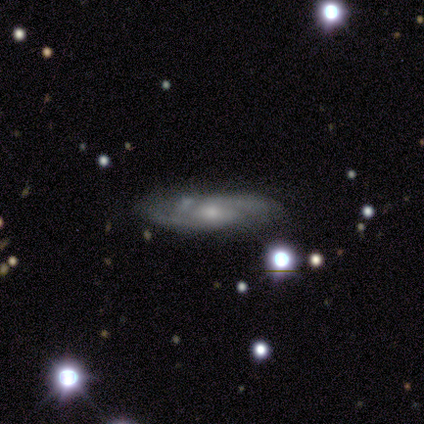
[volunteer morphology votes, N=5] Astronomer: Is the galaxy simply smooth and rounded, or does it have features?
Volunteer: featured or disk — 80%.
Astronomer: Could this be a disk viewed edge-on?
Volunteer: no — 100%.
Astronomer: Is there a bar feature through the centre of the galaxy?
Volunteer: no — 100%.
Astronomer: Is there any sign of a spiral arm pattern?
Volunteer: yes — 100%.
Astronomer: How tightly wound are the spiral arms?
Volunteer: tight — 75%.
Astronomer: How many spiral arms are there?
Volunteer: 2 — 75%.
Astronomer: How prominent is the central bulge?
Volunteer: small — 50%.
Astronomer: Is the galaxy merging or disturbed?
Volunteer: none — 60%.